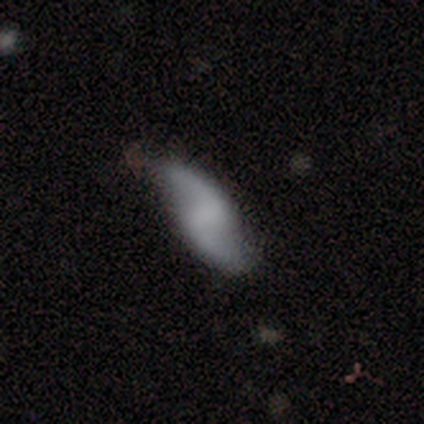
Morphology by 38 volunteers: Smooth or featured: featured or disk — 76% (smooth — 21%)
Edge-on disk: no — 97% (yes — 3%)
Bar: no — 61% (weak — 32%)
Spiral arms: yes — 100%
Spiral winding: loose — 89% (medium — 7%)
Spiral arm count: 2 — 100%
Bulge size: none — 86% (dominant — 4%)
Merging: none — 76% (minor disturbance — 19%)